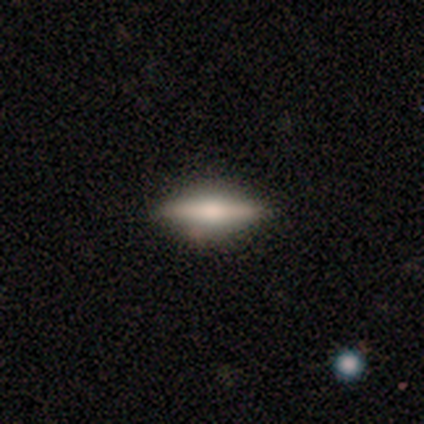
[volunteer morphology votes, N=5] This is likely a smooth galaxy (60%). How rounded: likely cigar-shaped (67%). Merging: clearly none (80%).